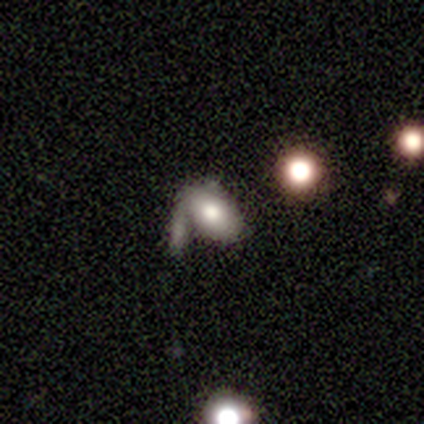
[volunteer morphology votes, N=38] Volunteers were most divided on "smooth or featured": smooth: 61%, featured or disk: 29%, star or artifact: 11%. More confident: how rounded — in between (91%); merging — merger (53%).